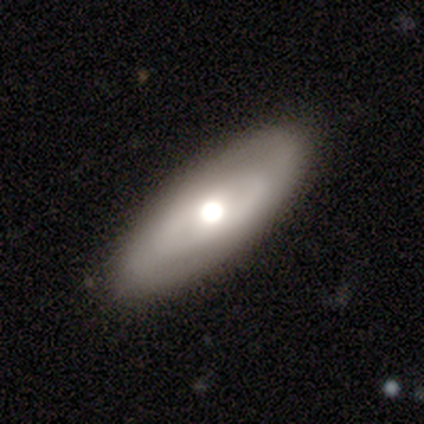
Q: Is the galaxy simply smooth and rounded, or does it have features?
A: smooth — 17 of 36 (47%).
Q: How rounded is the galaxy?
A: in between — 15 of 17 (88%).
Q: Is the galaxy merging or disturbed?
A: none — 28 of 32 (88%).